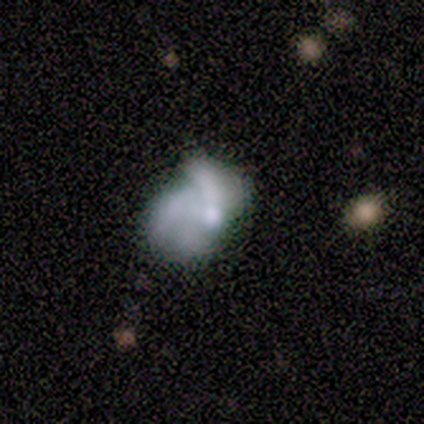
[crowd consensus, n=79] smooth-or-featured: featured or disk: 66% | smooth: 25% | star or artifact: 9%
  disk-edge-on: no: 100% | yes: 0%
    bar: no: 90% | weak: 8% | strong: 2%
    has-spiral-arms: yes: 50% (tied) | no: 50% (tied)
      spiral-winding: loose: 42% | medium: 35% | tight: 23%
      spiral-arm-count: 3: 58% | can't tell: 19% | 2: 15% | 4: 8% | 1: 0% | more than 4: 0%
    bulge-size: moderate: 50% | none: 25% | small: 19% | large: 4% | dominant: 2%
  merging: major disturbance: 35% | none: 29% | minor disturbance: 24% | merger: 12%